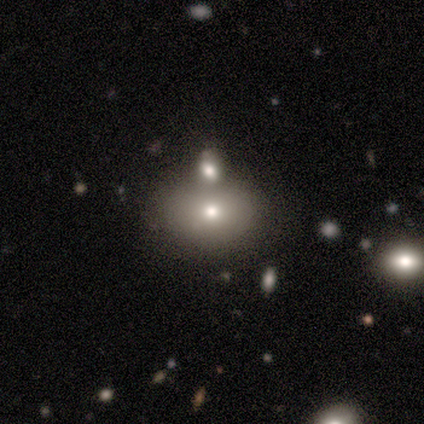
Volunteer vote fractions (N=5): smooth-or-featured: smooth: 80% | featured or disk: 20% | star or artifact: 0%
  how-rounded: in between: 75% | round: 25% | cigar-shaped: 0%
  merging: merger: 60% | minor disturbance: 40% | none: 0% | major disturbance: 0%